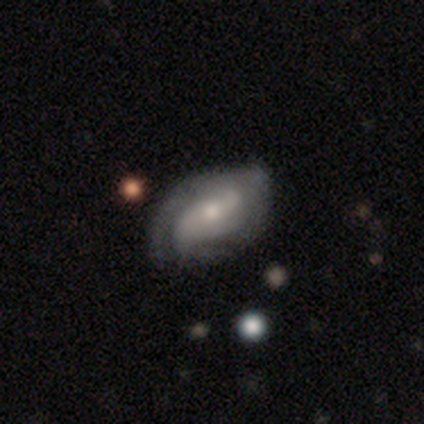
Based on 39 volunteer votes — A featured or disk galaxy (72%) with no bar (50%), 2 (70%) loose (39%) spiral arms (88%) and a small central bulge (58%).

Vote fractions:
- Smooth or featured? featured or disk: 72% / smooth: 18% / star or artifact: 10%
- Edge-on disk? no: 93% / yes: 7%
- Bar? no: 50% / weak: 35% / strong: 15%
- Spiral arms? yes: 88% / no: 12%
- Spiral winding? loose: 39% / tight: 35% / medium: 26%
- Spiral arm count? 2: 70% / 3: 13% / 1: 9% / can't tell: 9% / 4: 0% / more than 4: 0%
- Bulge size? small: 58% / moderate: 27% / large: 12% / none: 4% / dominant: 0%
- Merging? none: 37% / minor disturbance: 23% / major disturbance: 14% / merger: 6%